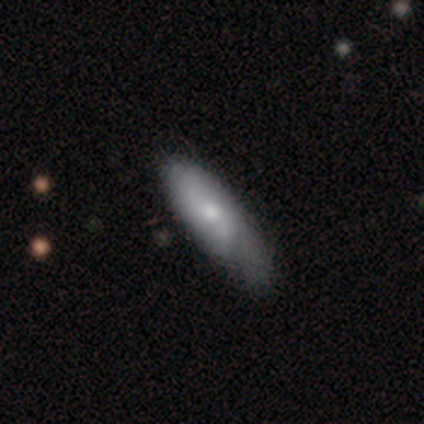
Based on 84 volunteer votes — This appears to be a smooth galaxy with no disk features (60%) that is in between round and cigar-shaped (64%). Merging: none (50%).